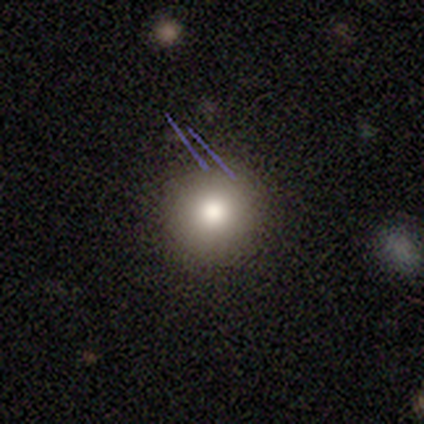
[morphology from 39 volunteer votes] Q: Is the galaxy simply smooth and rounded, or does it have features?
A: smooth — 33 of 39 (85%).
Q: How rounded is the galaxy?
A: round — 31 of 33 (94%).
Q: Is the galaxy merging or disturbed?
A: none — 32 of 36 (89%).